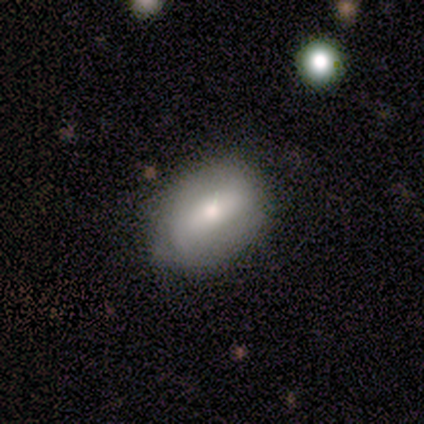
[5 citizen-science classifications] featured or disk 60%, smooth 40%, star or artifact 0%. Down the decision tree: edge-on disk — no (67%); bar — strong (50%, tied with weak); spiral arms — yes (50%, tied with no); spiral arm count — 2 (100%); spiral winding — tight (100%); bulge size — moderate (100%); merging — none (100%).